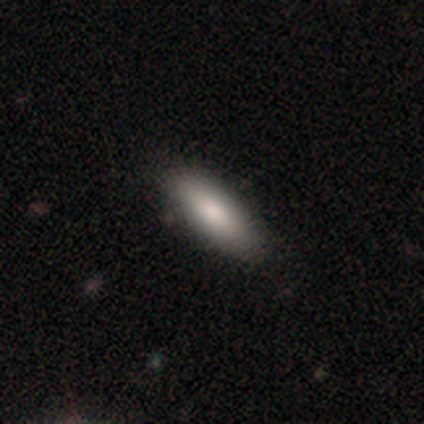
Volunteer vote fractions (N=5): Overall: smooth (60%; star or artifact 40%). How rounded: in between (67%; cigar-shaped 33%). Merging: none (100%).